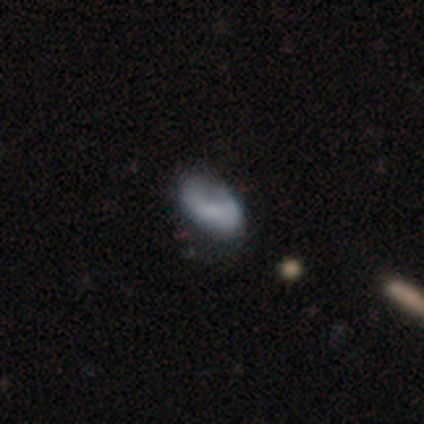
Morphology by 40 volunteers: smooth 62%, featured or disk 32%, star or artifact 5%. Down the decision tree: how rounded — in between (92%); merging — none (45%).